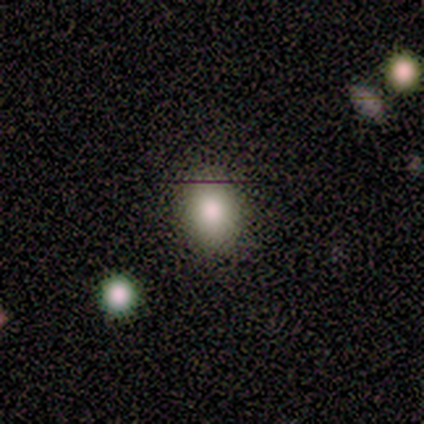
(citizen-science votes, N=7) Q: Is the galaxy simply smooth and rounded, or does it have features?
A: smooth — 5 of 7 (71%).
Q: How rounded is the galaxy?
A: round — 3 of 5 (60%).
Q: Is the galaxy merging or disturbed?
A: none — 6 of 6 (100%).